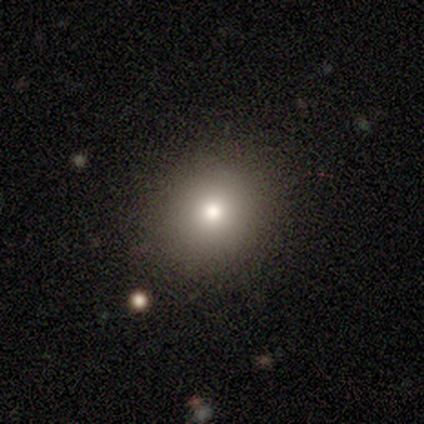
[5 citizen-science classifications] Smooth or featured?
  - smooth: 100% *
  - featured or disk: 0%
  - star or artifact: 0%
How rounded?
  - round: 60% *
  - in between: 40%
  - cigar-shaped: 0%
Merging?
  - none: 80% *
  - minor disturbance: 20%
  - major disturbance: 0%
  - merger: 0%